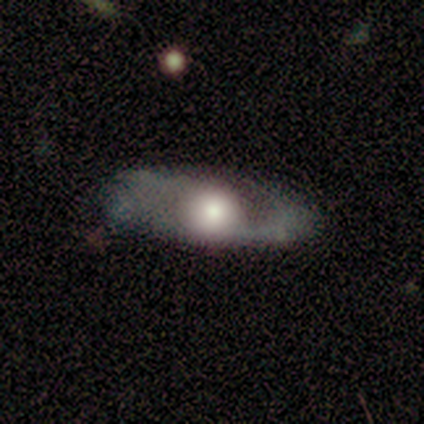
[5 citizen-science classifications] Smooth or featured? 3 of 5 (60%) said featured or disk. Edge-on disk? 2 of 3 (67%) said no. Bar? 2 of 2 (100%) said no. Spiral arms? 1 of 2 (50%, tied with no) said yes. Spiral winding? 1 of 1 (100%) said loose. Spiral arm count? 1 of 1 (100%) said can't tell. Bulge size? 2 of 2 (100%) said large. Merging? 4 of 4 (100%) said none.